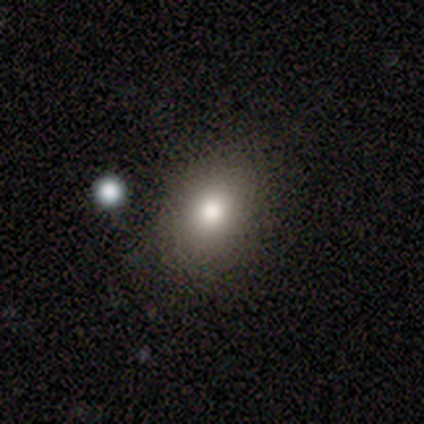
smooth 72%, featured or disk 15%, star or artifact 13%. Down the decision tree: how rounded — round (54%); merging — none (88%).